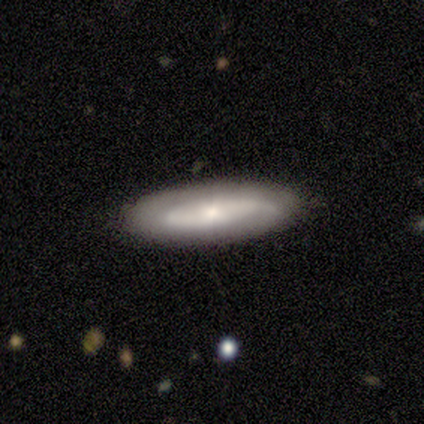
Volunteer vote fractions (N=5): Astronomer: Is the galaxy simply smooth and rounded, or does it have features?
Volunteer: featured or disk — 80%.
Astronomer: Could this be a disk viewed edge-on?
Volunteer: yes — 75%.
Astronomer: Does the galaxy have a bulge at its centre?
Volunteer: rounded — 67%.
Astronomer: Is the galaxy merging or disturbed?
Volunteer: none — 100%.